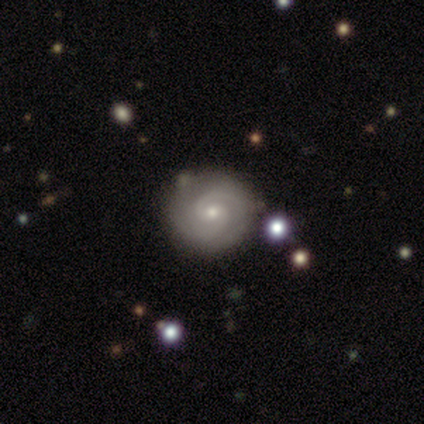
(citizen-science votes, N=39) featured or disk 82%, smooth 18%, star or artifact 0%. Down the decision tree: edge-on disk — no (100%); bar — no (66%); spiral arms — yes (100%); spiral arm count — 2 (84%); spiral winding — tight (66%); bulge size — small (62%); merging — none (82%).